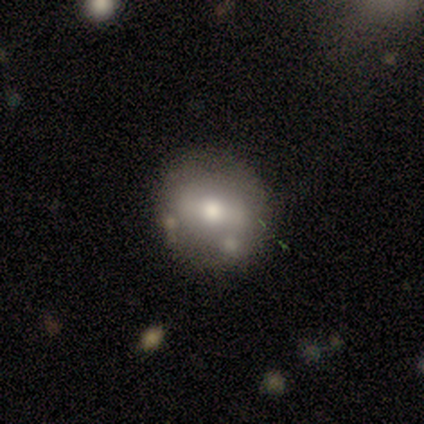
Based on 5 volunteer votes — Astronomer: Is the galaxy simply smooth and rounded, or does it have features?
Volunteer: featured or disk — 60%.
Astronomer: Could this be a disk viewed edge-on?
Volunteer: no — 100%.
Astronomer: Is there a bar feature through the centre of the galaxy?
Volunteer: strong — 33%, tied with weak and no at 33%.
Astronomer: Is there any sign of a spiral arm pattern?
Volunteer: no — 67%.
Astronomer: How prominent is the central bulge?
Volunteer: moderate — 67%.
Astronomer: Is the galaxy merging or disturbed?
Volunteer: none — 100%.